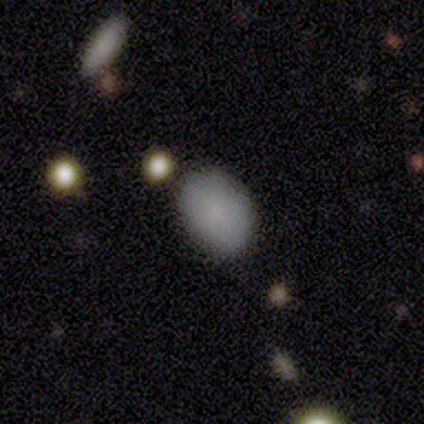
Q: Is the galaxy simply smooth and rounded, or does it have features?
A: smooth — 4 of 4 (100%).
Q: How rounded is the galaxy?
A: in between — 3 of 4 (75%).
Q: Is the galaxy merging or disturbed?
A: none — 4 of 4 (100%).